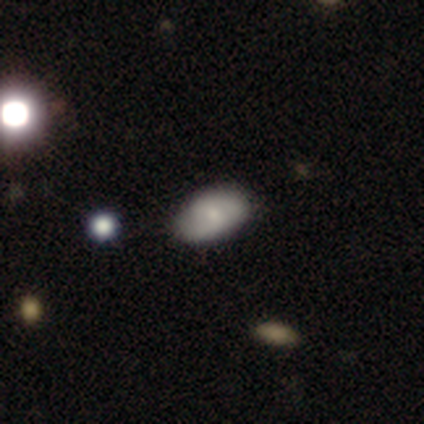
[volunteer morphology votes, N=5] featured or disk 60%, smooth 40%, star or artifact 0%. Down the decision tree: edge-on disk — no (100%); bar — strong (33%, tied with weak and no); spiral arms — no (67%); bulge size — small (67%); merging — none (100%).